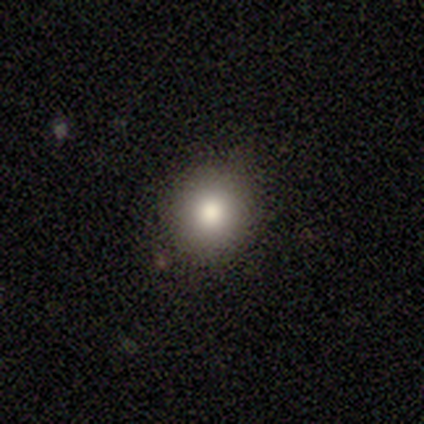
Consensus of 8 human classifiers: smooth_or_featured: smooth (p=0.88) [alt: featured or disk p=0.12]
how_rounded: round (p=0.86) [alt: in between p=0.14]
merging: none (p=1.00)